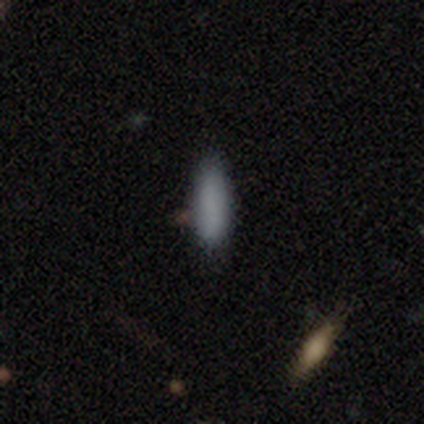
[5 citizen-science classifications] This appears to be a smooth galaxy with no disk features (100%) that is in between round and cigar-shaped (60%). Merging: none (100%).